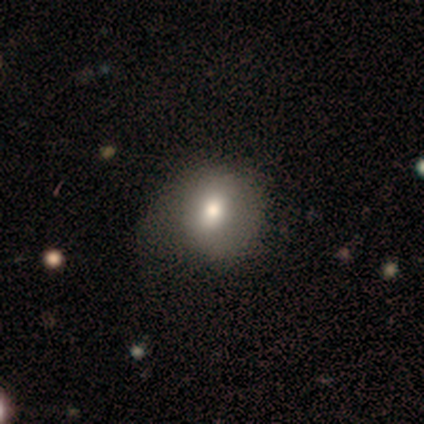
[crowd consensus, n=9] Smooth or featured: smooth — 67% (featured or disk — 33%)
How rounded: round — 83% (in between — 17%)
Merging: none — 56% (major disturbance — 33%)